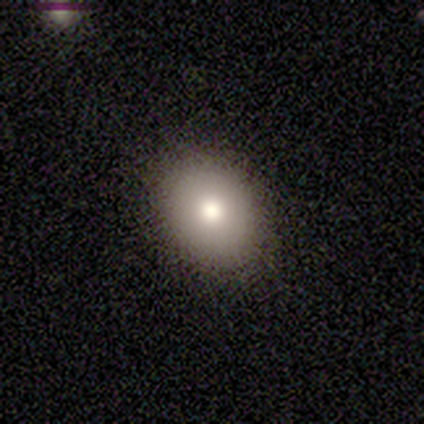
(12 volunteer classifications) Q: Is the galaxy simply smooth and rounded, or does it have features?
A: smooth — 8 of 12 (67%).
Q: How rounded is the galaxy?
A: in between — 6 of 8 (75%).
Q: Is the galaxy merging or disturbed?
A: none — 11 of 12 (92%).